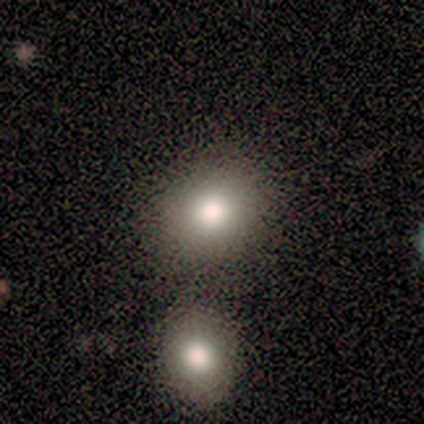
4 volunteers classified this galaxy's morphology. A smooth galaxy with no disk features (50%) that is round (100%).

Vote fractions:
- Smooth or featured? smooth: 50% / featured or disk: 25% / star or artifact: 25%
- How rounded? round: 100% / in between: 0% / cigar-shaped: 0%
- Merging? none: 67% / merger: 33% / minor disturbance: 0% / major disturbance: 0%